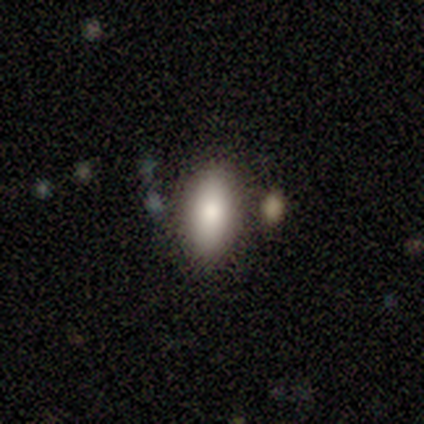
Smooth or featured? smooth (100%)
How rounded? in between (100%)
Merging? none (100%)